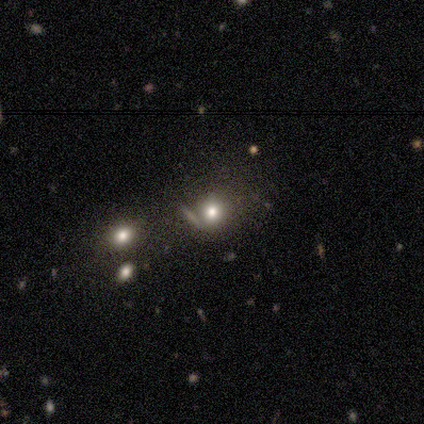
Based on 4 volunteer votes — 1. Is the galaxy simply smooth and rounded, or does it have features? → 75% smooth, 25% star or artifact, 0% featured or disk.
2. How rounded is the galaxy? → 100% round, 0% in between, 0% cigar-shaped.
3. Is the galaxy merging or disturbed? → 33% none (tied), 33% minor disturbance (tied), 33% merger (tied), 0% major disturbance.